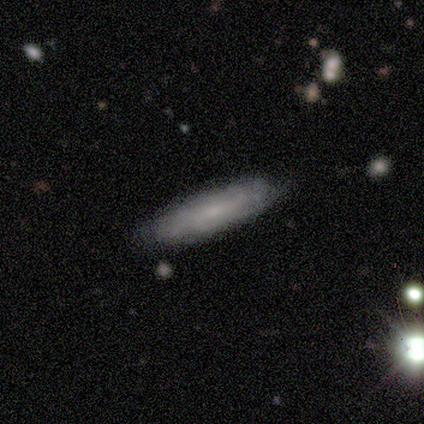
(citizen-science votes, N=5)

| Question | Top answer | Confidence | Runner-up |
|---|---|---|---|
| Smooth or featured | smooth | 80% | featured or disk (20%) |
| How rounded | cigar-shaped | 75% | in between (25%) |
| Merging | none | 80% | minor disturbance (20%) |